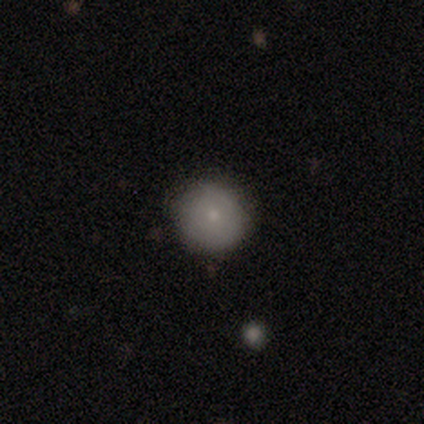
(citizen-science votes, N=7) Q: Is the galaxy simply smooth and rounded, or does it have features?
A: smooth — 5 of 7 (71%).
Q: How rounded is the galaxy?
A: round — 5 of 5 (100%).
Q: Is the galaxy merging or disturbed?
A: none — 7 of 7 (100%).